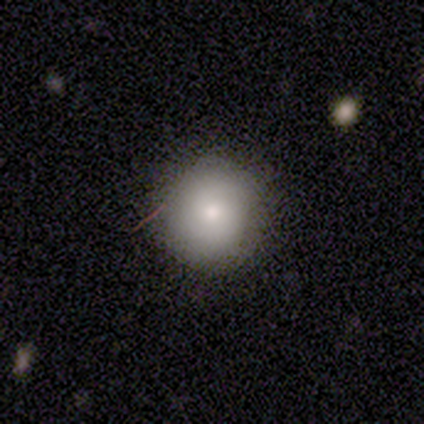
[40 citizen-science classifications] This is likely a smooth galaxy (70%). How rounded: clearly round (89%). Merging: clearly none (83%).